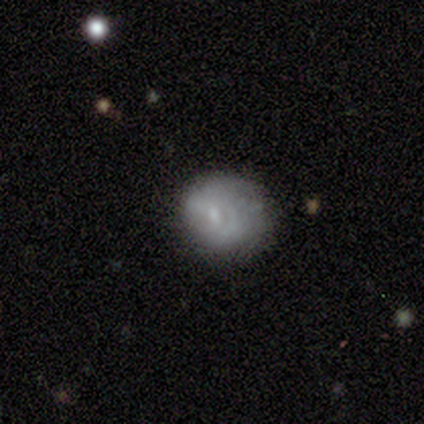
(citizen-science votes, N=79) Q: Smooth or featured?
A: smooth (57%); runner-up: featured or disk (39%)
Q: How rounded?
A: round (82%); runner-up: in between (18%)
Q: Merging?
A: none (36%); runner-up: minor disturbance (12%)